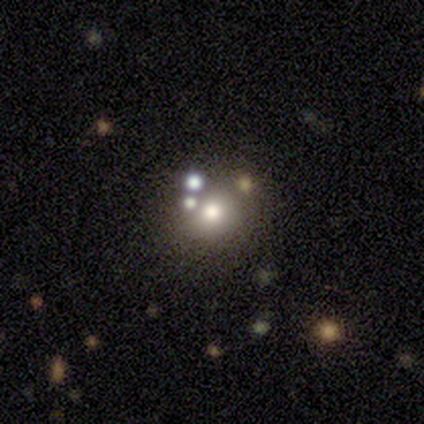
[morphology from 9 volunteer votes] type=featured or disk (56%); edge-on=no (100%); bar=no (80%); spiral arms=no (100%); bulge=moderate (60%); merging=none (62%).